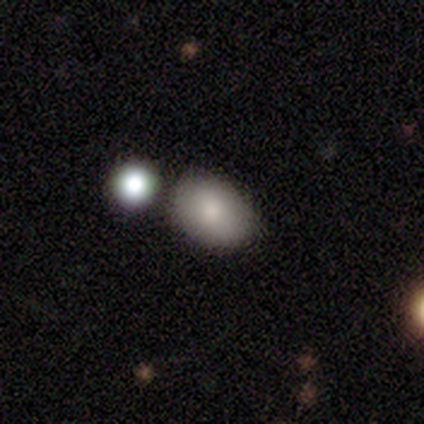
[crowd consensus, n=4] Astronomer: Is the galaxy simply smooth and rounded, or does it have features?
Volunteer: smooth — 100%.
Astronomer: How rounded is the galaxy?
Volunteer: in between — 100%.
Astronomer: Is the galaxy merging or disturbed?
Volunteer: none — 75%.